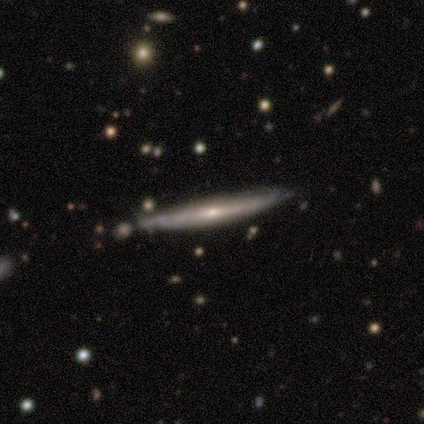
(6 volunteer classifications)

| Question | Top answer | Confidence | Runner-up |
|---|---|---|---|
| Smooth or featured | featured or disk | 83% | smooth (17%) |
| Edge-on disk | yes | 100% | — |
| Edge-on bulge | none | 60% | rounded (40%) |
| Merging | none | 67% | minor disturbance (17%) |